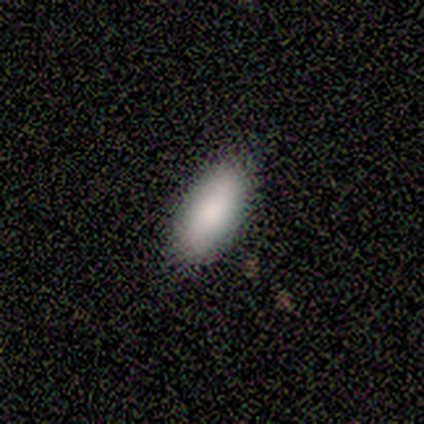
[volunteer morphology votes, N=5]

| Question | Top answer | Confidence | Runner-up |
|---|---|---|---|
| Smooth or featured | smooth | 100% | — |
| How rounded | in between | 100% | — |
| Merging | none | 100% | — |